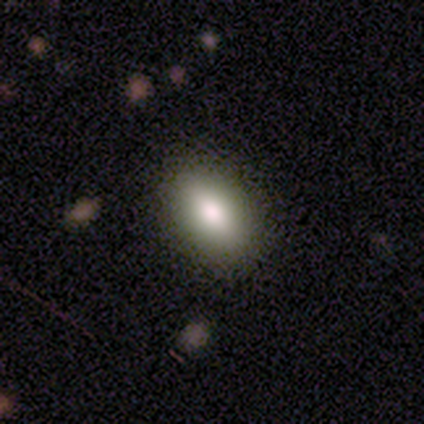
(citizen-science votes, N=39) smooth 85%, featured or disk 13%, star or artifact 3%. Down the decision tree: how rounded — in between (88%); merging — none (95%).